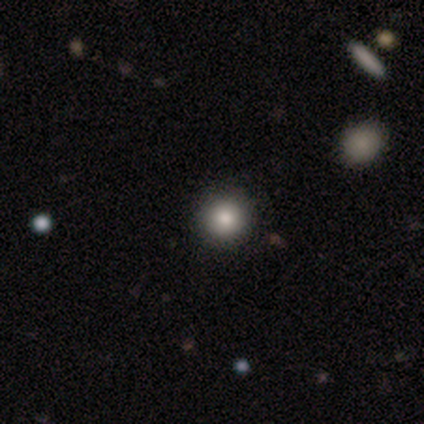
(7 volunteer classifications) Volunteers were most divided on "smooth or featured": smooth: 86%, featured or disk: 14%, star or artifact: 0%. More confident: how rounded — round (100%); merging — none (100%).